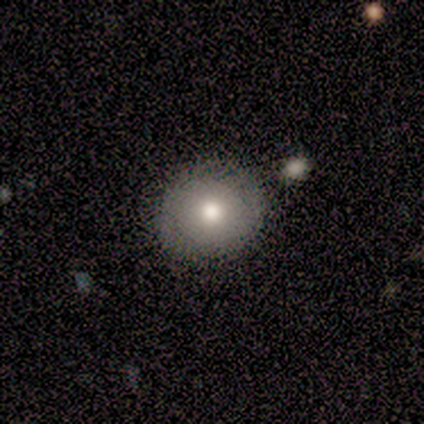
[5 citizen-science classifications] A smooth galaxy with no disk features (40%, tied with star or artifact) that is round (100%). Merging: none (100%).